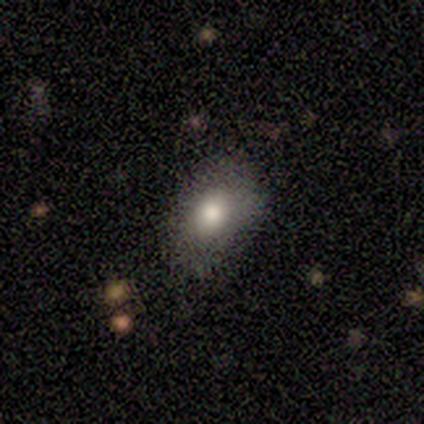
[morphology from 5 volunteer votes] Q: Smooth or featured?
A: smooth (60%); runner-up: star or artifact (40%)
Q: How rounded?
A: in between (100%)
Q: Merging?
A: none (67%); runner-up: minor disturbance (33%)